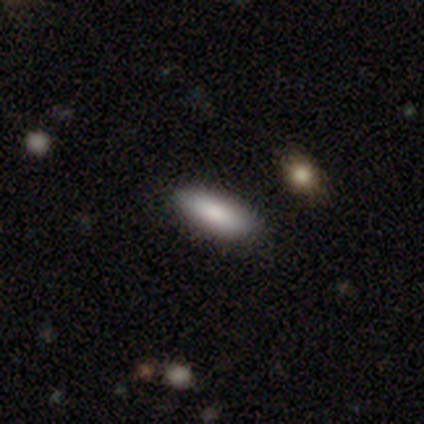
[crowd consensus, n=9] Volunteers were most divided on "how rounded": in between: 75%, cigar-shaped: 25%, round: 0%. More confident: smooth or featured — smooth (89%); merging — none (78%).